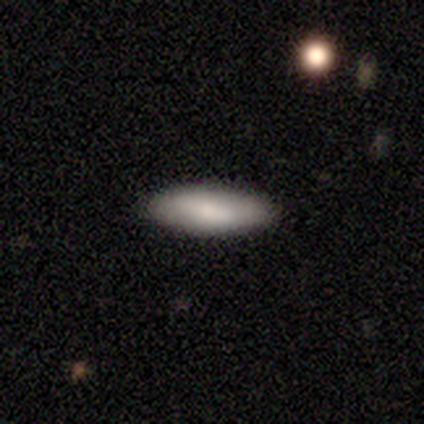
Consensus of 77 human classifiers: Morphology: type=smooth (84%); roundness=in between (71%); merging=none (45%).